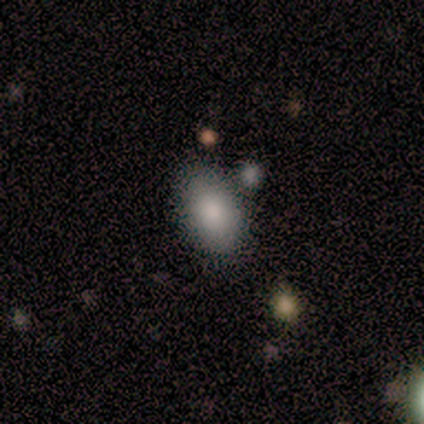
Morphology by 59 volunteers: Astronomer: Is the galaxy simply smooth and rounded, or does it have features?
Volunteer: smooth — 93%.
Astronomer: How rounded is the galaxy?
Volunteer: in between — 95%.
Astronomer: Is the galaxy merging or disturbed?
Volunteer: none — 81%.